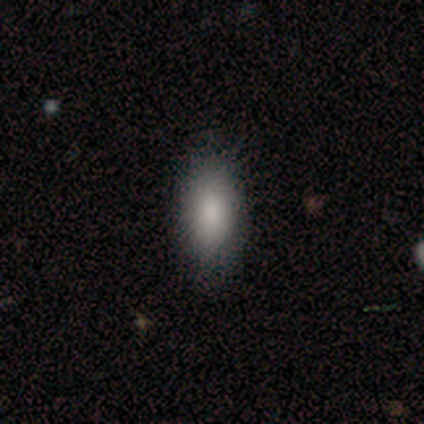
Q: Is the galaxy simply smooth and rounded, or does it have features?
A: smooth — 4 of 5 (80%).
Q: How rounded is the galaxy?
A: in between — 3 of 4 (75%).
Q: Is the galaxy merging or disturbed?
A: none — 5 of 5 (100%).